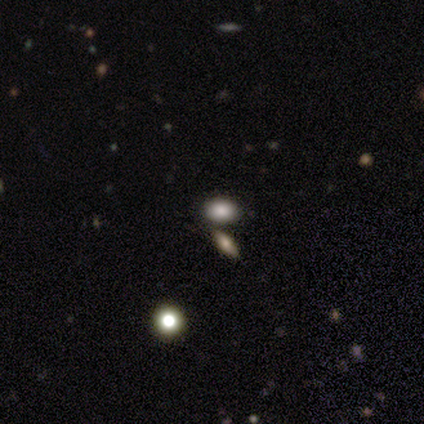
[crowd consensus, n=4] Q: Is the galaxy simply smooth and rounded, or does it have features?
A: smooth — 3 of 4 (75%).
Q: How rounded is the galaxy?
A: in between — 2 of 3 (67%).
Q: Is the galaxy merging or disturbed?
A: none — 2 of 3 (67%).